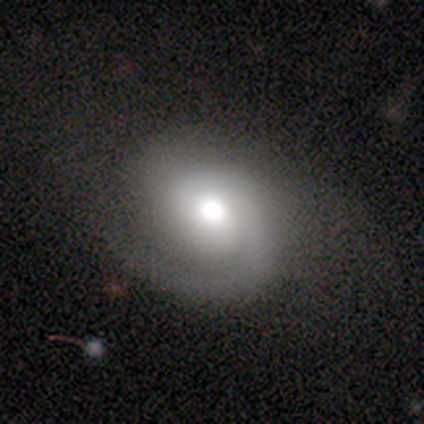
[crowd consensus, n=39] smooth_or_featured: featured or disk (p=0.79) [alt: smooth p=0.18]
disk_edge_on: no (p=0.97) [alt: yes p=0.03]
bar: no (p=0.73) [alt: weak p=0.20]
has_spiral_arms: yes (p=0.97) [alt: no p=0.03]
spiral_winding: tight (p=0.52) [alt: medium p=0.38]
spiral_arm_count: 1 (p=0.55) [alt: 2 p=0.41]
bulge_size: moderate (p=0.50) [alt: large p=0.37]
merging: none (p=0.55) [alt: minor disturbance p=0.08]